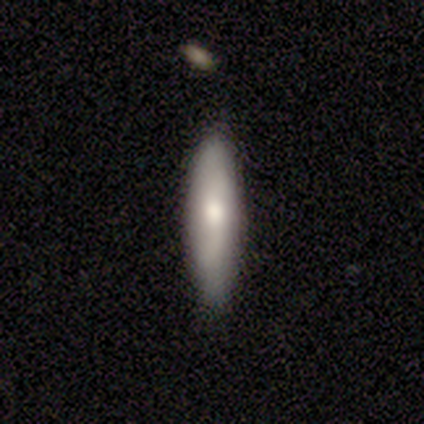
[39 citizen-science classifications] A smooth galaxy with no disk features (56%) that is cigar-shaped (77%).

Vote fractions:
- Smooth or featured? smooth: 56% / featured or disk: 31% / star or artifact: 13%
- How rounded? cigar-shaped: 77% / in between: 23% / round: 0%
- Merging? none: 79% / minor disturbance: 18% / major disturbance: 3% / merger: 0%